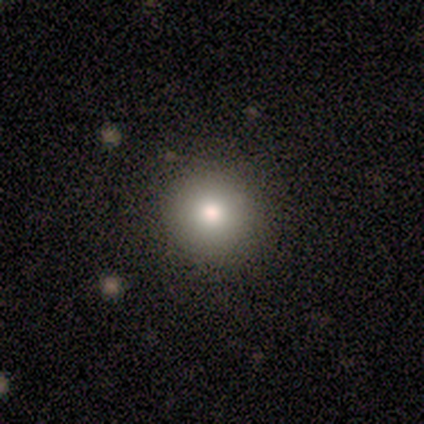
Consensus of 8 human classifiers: smooth 88%, featured or disk 12%, star or artifact 0%. Down the decision tree: how rounded — round (71%); merging — none (75%).